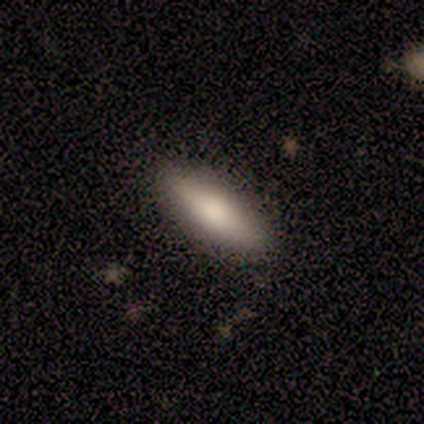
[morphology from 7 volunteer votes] Volunteers were most divided on "how rounded": in between: 67%, cigar-shaped: 33%, round: 0%. More confident: merging — none (100%); smooth or featured — smooth (86%).